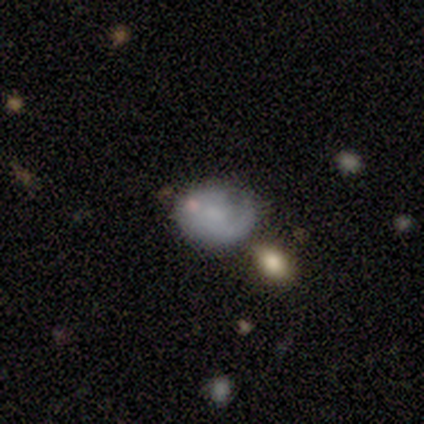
Overall: smooth (40%, tied with star or artifact). How rounded: round (50%, tied with in between). Merging: none (67%; minor disturbance 33%).